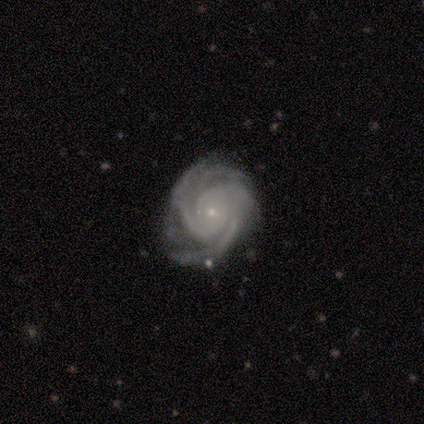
Smooth or featured? 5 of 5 (100%) said featured or disk. Edge-on disk? 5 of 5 (100%) said no. Bar? 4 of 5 (80%) said no. Spiral arms? 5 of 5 (100%) said yes. Spiral winding? 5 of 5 (100%) said tight. Spiral arm count? 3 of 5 (60%) said 4. Bulge size? 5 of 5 (100%) said small. Merging? 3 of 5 (60%) said none.